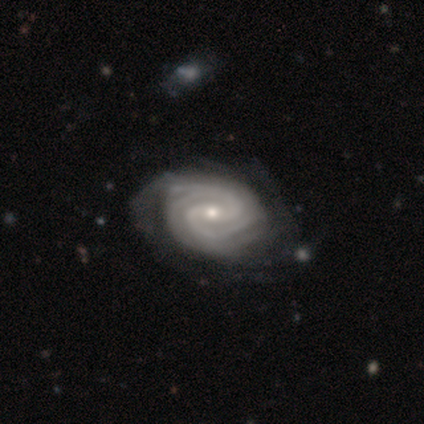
A featured or disk galaxy (80%) with a strong bar (75%), 2 (25%, tied with 3, 4 and can't tell) tight (50%, tied with medium) spiral arms (100%) and a moderate central bulge (50%, tied with small).

Vote fractions:
- Smooth or featured? featured or disk: 80% / star or artifact: 20% / smooth: 0%
- Edge-on disk? no: 100% / yes: 0%
- Bar? strong: 75% / weak: 25% / no: 0%
- Spiral arms? yes: 100% / no: 0%
- Spiral winding? tight: 50% (tied) / medium: 50% (tied) / loose: 0%
- Spiral arm count? 2: 25% (tied) / 3: 25% (tied) / 4: 25% (tied) / can't tell: 25% (tied) / 1: 0% / more than 4: 0%
- Bulge size? moderate: 50% (tied) / small: 50% (tied) / dominant: 0% / large: 0% / none: 0%
- Merging? none: 50% / minor disturbance: 25% / major disturbance: 25% / merger: 0%